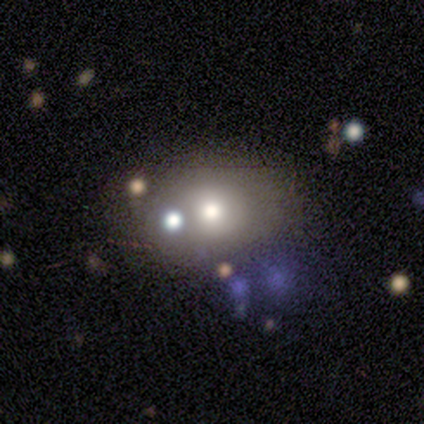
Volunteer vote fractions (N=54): Smooth or featured?
  - smooth: 57% *
  - featured or disk: 30%
  - star or artifact: 13%
How rounded?
  - in between: 71% *
  - round: 29%
  - cigar-shaped: 0%
Merging?
  - none: 64% *
  - merger: 15%
  - minor disturbance: 13%
  - major disturbance: 9%